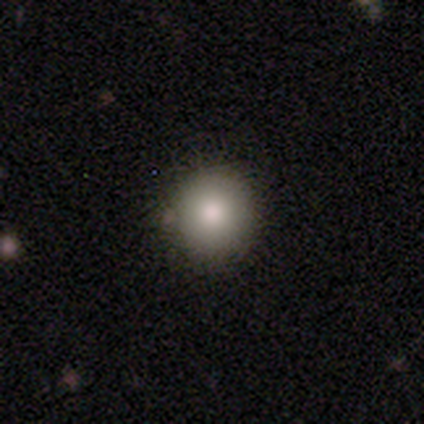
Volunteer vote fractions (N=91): Smooth or featured? smooth (78%)
How rounded? round (94%)
Merging? none (89%)